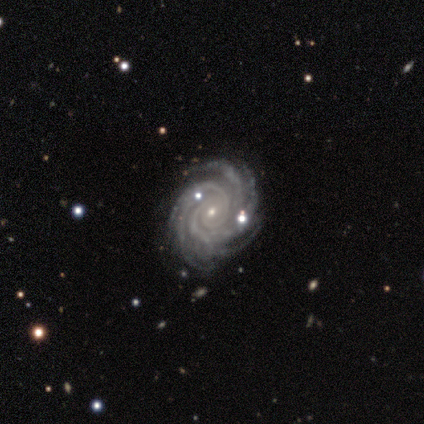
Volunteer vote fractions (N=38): smooth_or_featured: featured or disk (p=0.92) [alt: star or artifact p=0.05]
disk_edge_on: no (p=0.94) [alt: yes p=0.06]
bar: no (p=0.73) [alt: weak p=0.21]
has_spiral_arms: yes (p=0.97) [alt: no p=0.03]
spiral_winding: tight (p=0.94) [alt: medium p=0.06]
spiral_arm_count: more than 4 (p=0.72) [alt: 3 p=0.12]
bulge_size: small (p=0.82) [alt: moderate p=0.18]
merging: none (p=0.86) [alt: minor disturbance p=0.11]